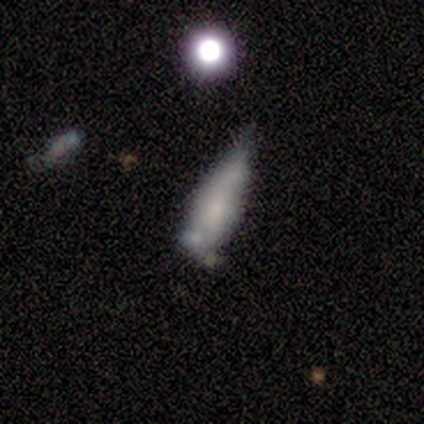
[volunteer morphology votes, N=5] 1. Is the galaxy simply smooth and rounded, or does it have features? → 60% smooth, 40% featured or disk, 0% star or artifact.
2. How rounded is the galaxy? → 67% cigar-shaped, 33% in between, 0% round.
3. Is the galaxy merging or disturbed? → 60% major disturbance, 20% none, 20% minor disturbance, 0% merger.